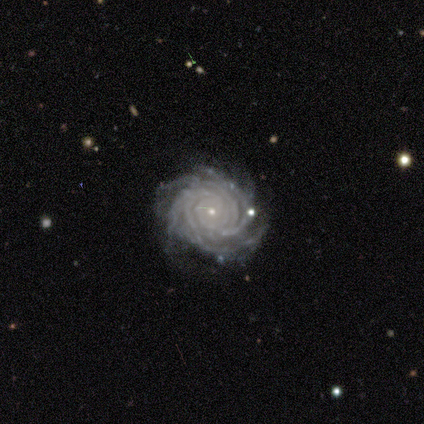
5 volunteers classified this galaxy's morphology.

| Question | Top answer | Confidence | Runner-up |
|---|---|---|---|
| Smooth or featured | featured or disk | 100% | — |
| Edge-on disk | no | 100% | — |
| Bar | no | 80% | strong (20%) |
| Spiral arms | yes | 100% | — |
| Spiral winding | tight | 60% | medium (40%) |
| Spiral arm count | more than 4 | 60% | 4 (20%) |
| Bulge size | small | 60% | moderate (40%) |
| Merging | none | 40% | minor disturbance (20%) |